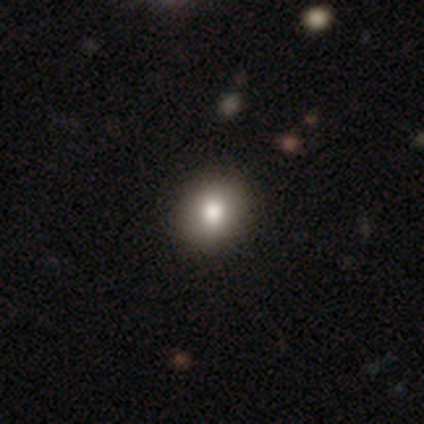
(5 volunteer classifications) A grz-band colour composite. It shows a smooth galaxy with no disk features (40%, tied with featured or disk) that is round (100%). Merging: none (100%).